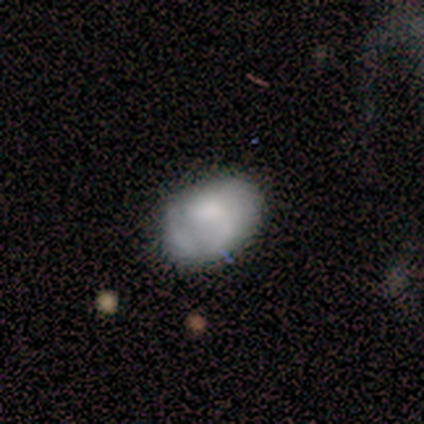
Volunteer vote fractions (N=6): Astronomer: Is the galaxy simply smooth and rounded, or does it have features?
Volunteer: smooth — 83%.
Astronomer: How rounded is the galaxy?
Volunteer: in between — 80%.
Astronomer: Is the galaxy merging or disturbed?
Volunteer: none — 80%.